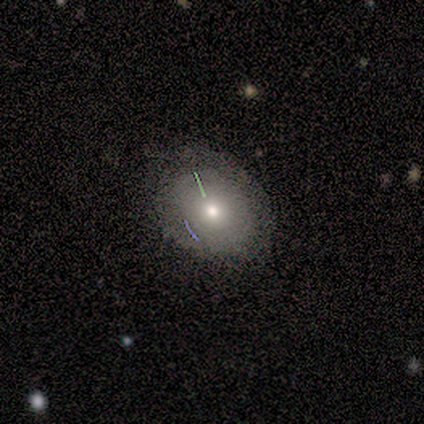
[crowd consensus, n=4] This is possibly a smooth galaxy (50%). How rounded: possibly round (50%, tied with in between). Merging: likely none (67%).